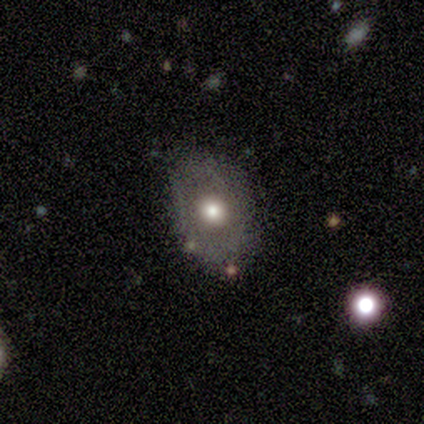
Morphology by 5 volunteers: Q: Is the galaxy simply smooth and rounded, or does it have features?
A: featured or disk — 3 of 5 (60%).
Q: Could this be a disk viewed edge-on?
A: no — 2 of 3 (67%).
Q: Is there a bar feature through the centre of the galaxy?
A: no — 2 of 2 (100%).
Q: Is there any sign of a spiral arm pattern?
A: no — 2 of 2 (100%).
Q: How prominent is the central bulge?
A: large — 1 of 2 (50%, tied with moderate).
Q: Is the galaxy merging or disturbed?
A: none — 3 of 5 (60%).